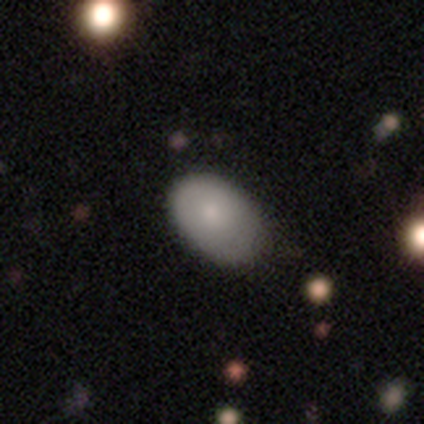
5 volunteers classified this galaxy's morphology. smooth_or_featured: smooth (p=1.00)
how_rounded: in between (p=1.00)
merging: none (p=0.60) [alt: minor disturbance p=0.40]